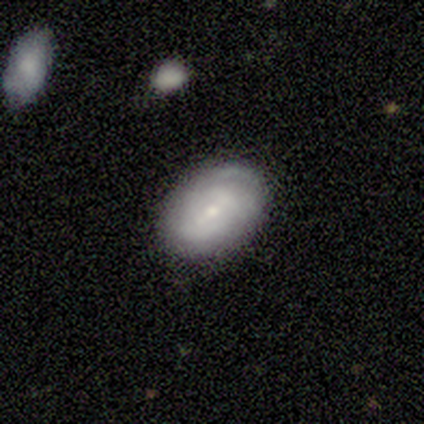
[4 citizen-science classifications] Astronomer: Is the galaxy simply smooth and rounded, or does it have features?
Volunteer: smooth — 50%, tied with featured or disk at 50%.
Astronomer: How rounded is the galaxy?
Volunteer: in between — 100%.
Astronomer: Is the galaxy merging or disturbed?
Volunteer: none — 75%.